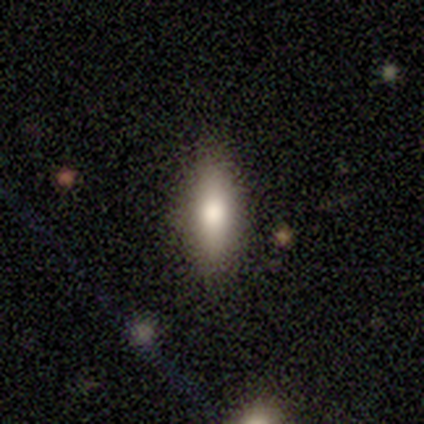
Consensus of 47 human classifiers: Smooth or featured? 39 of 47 (83%) said smooth. How rounded? 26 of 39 (67%) said in between. Merging? 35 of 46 (76%) said none.